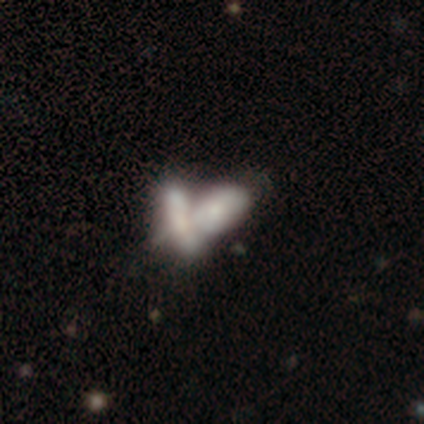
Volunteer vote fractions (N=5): This is likely a featured or disk galaxy (60%). It is likely not viewed edge-on (67%). Bar: clearly no (100%). Spiral arm pattern: clearly no (100%). Central bulge: clearly small (100%). Merging: clearly merger (80%).